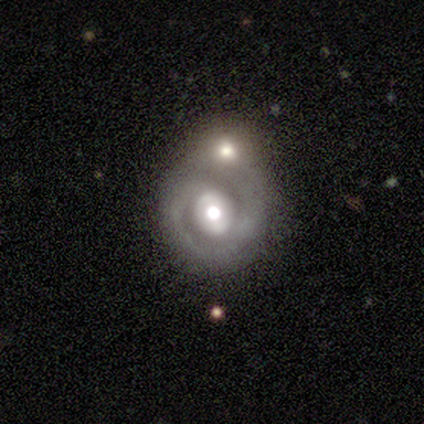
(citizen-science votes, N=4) This is clearly a featured or disk galaxy (100%). It is clearly not viewed edge-on (100%). Bar: likely no (75%). Spiral arm pattern: likely yes (75%). Spiral arm count: likely 2 (67%). Spiral winding: likely tight (67%). Central bulge: possibly moderate (50%). Merging: possibly none (50%, tied with merger).